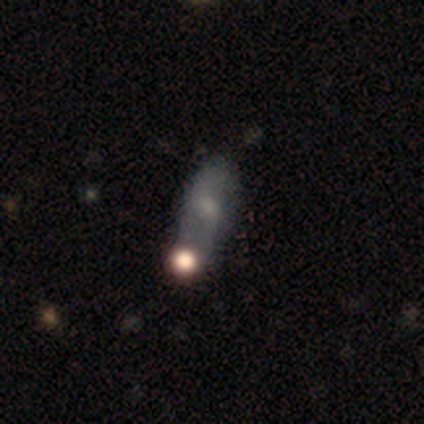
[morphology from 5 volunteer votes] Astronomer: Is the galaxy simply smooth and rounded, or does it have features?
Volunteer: featured or disk — 60% (runner-up: smooth, 40%).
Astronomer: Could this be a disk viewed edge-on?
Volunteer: no — 100%.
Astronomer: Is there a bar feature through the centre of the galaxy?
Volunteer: no — 67%.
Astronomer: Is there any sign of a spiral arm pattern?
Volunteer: no — 67%.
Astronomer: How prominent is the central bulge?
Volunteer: moderate — 67%.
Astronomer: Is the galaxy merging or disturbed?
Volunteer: none — 40%, tied with merger at 40%.